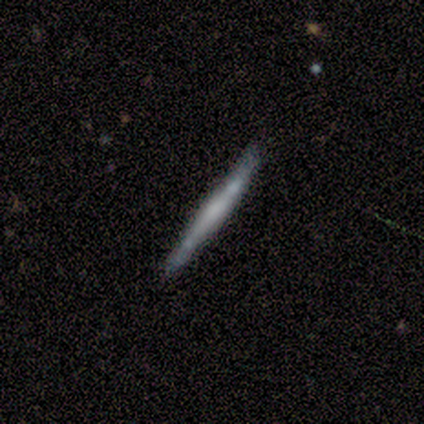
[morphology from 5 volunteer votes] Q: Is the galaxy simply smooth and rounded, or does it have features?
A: featured or disk — 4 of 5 (80%).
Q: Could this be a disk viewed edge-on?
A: yes — 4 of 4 (100%).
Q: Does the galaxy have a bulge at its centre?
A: rounded — 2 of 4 (50%).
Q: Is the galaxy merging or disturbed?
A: none — 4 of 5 (80%).